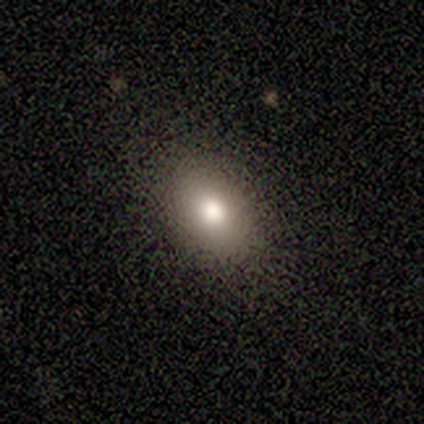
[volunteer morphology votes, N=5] Q: Smooth or featured?
A: smooth (80%); runner-up: featured or disk (20%)
Q: How rounded?
A: in between (75%); runner-up: round (25%)
Q: Merging?
A: none (100%)